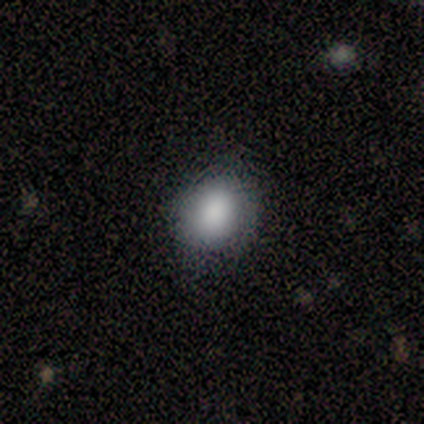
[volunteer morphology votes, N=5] Smooth or featured: smooth — 100%
How rounded: in between — 60% (round — 40%)
Merging: none — 100%